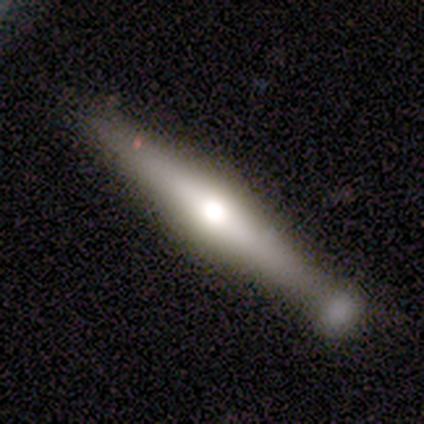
A featured or disk galaxy (88%) viewed edge-on (100%) with a rounded central bulge (100%).

Vote fractions:
- Smooth or featured? featured or disk: 88% / smooth: 12% / star or artifact: 0%
- Edge-on disk? yes: 100% / no: 0%
- Edge-on bulge? rounded: 100% / boxy: 0% / none: 0%
- Merging? none: 88% / minor disturbance: 12% / major disturbance: 0% / merger: 0%